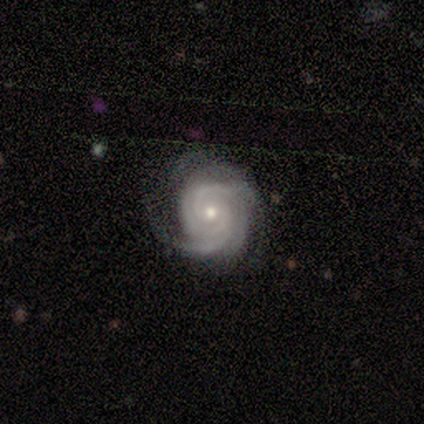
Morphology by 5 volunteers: Smooth or featured? featured or disk (100%)
Edge-on disk? no (100%)
Bar? no (80%)
Spiral arms? yes (100%)
Spiral winding? tight (80%)
Spiral arm count? can't tell (40%)
Bulge size? small (80%)
Merging? none (80%)